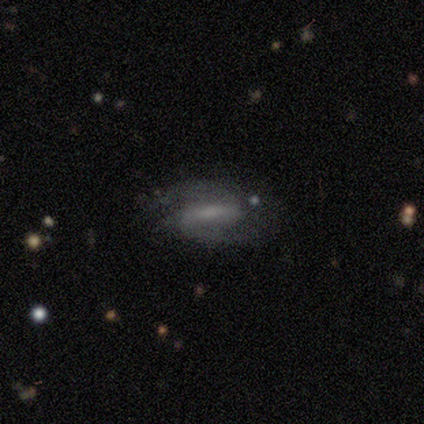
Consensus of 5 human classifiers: Morphology: type=featured or disk (80%); edge-on=no (100%); bar=strong (75%); spiral arms=yes (100%); winding=medium (50%); arm count=2 (75%); bulge=large (50%); merging=none (80%).